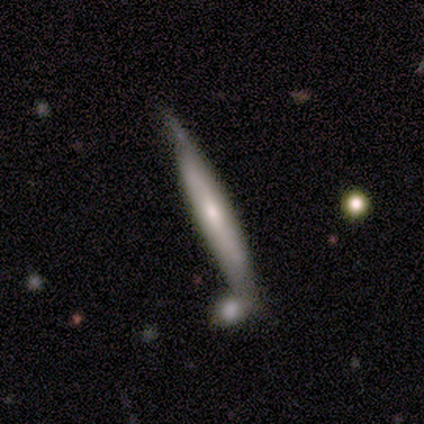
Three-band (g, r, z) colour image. It shows a smooth galaxy with no disk features (70%) that is cigar-shaped (100%). Merging: none (40%, tied with minor disturbance).